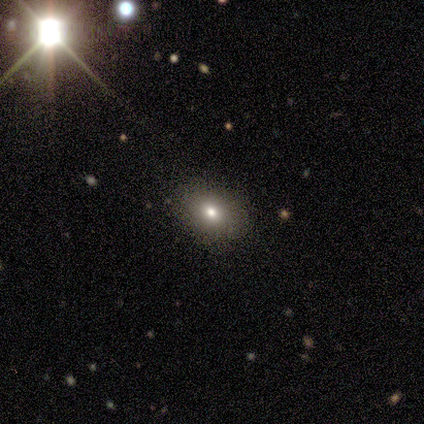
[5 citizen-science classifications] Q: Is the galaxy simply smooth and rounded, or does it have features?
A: featured or disk — 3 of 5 (60%).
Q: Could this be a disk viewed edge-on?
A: no — 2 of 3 (67%).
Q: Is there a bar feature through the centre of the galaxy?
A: no — 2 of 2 (100%).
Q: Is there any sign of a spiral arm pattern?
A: no — 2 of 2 (100%).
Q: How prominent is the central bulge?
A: large — 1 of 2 (50%, tied with moderate).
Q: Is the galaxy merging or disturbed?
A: none — 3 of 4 (75%).